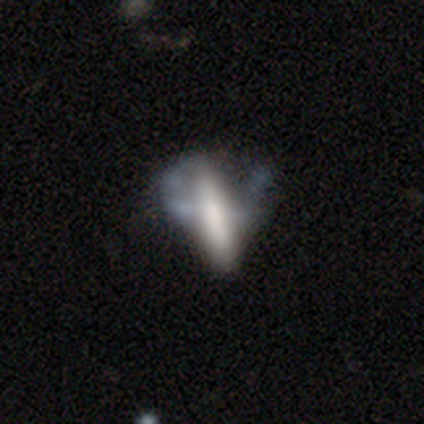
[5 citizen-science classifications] A smooth galaxy with no disk features (60%) that is cigar-shaped (100%).

Vote fractions:
- Smooth or featured? smooth: 60% / featured or disk: 40% / star or artifact: 0%
- How rounded? cigar-shaped: 100% / round: 0% / in between: 0%
- Merging? none: 40% / minor disturbance: 20% / major disturbance: 20% / merger: 20%